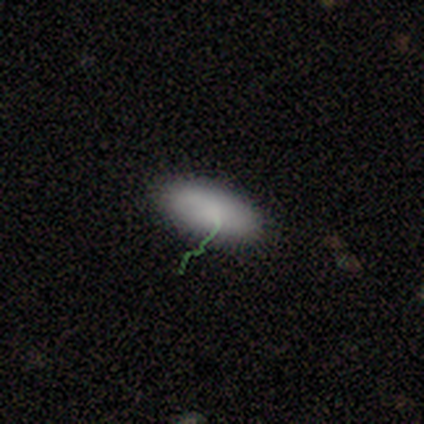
This is likely a smooth galaxy (78%). How rounded: clearly in between (100%). Merging: clearly none (100%).